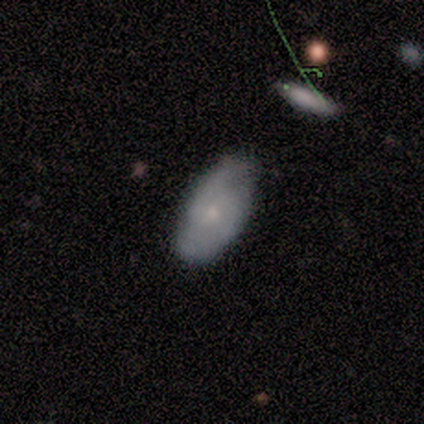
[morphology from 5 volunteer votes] smooth-or-featured: smooth: 80% | featured or disk: 20% | star or artifact: 0%
  how-rounded: round: 50% (tied) | in between: 50% (tied) | cigar-shaped: 0%
  merging: none: 40% (tied) | minor disturbance: 40% (tied) | merger: 20% | major disturbance: 0%